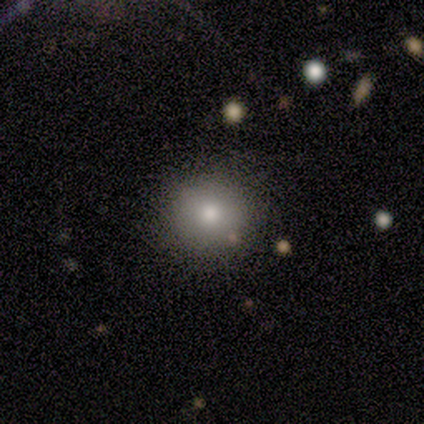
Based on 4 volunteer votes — This is possibly a smooth galaxy (50%). How rounded: clearly round (100%). Merging: clearly none (100%).